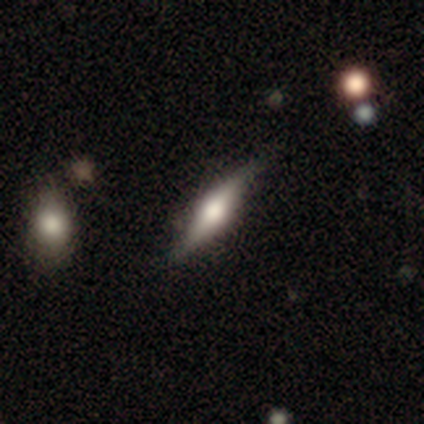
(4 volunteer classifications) Q: Smooth or featured?
A: featured or disk (100%)
Q: Edge-on disk?
A: yes (100%)
Q: Edge-on bulge?
A: rounded (100%)
Q: Merging?
A: none (75%); runner-up: minor disturbance (25%)